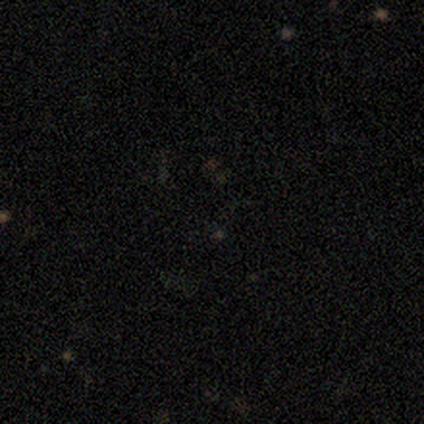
Morphology: type=star or artifact (100%).